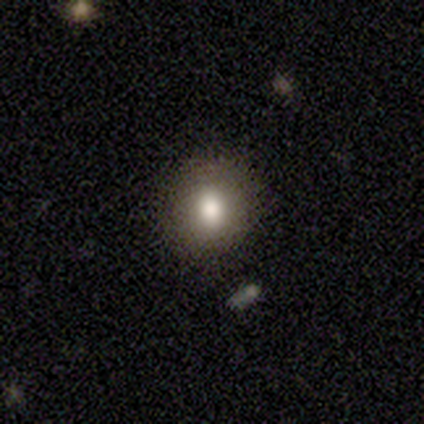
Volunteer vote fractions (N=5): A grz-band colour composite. It shows a smooth galaxy with no disk features (80%) that is round (100%). Merging: none (100%).